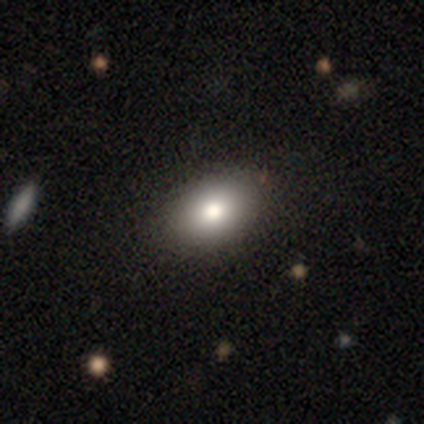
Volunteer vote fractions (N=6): Volunteers were most divided on "smooth or featured": smooth: 67%, featured or disk: 17%, star or artifact: 17%. More confident: merging — none (100%); how rounded — in between (75%).